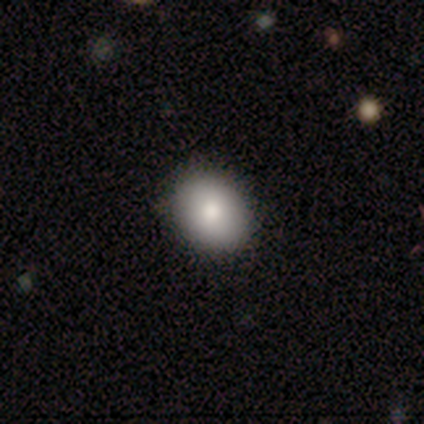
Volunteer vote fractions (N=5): A smooth galaxy with no disk features (80%) that is round (50%, tied with in between).

Vote fractions:
- Smooth or featured? smooth: 80% / featured or disk: 20% / star or artifact: 0%
- How rounded? round: 50% (tied) / in between: 50% (tied) / cigar-shaped: 0%
- Merging? none: 100% / minor disturbance: 0% / major disturbance: 0% / merger: 0%